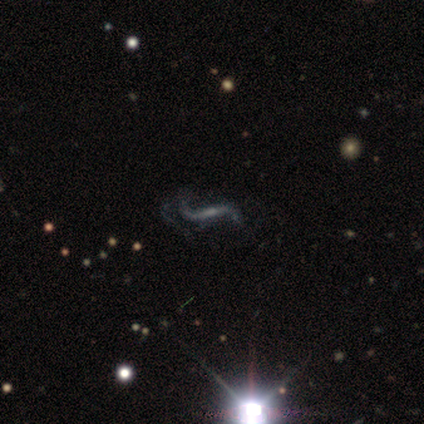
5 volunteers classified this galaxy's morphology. Smooth or featured? 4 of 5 (80%) said featured or disk. Edge-on disk? 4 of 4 (100%) said no. Bar? 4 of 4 (100%) said strong. Spiral arms? 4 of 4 (100%) said yes. Spiral winding? 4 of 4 (100%) said loose. Spiral arm count? 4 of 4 (100%) said 2. Bulge size? 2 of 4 (50%) said small. Merging? 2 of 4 (50%) said none.